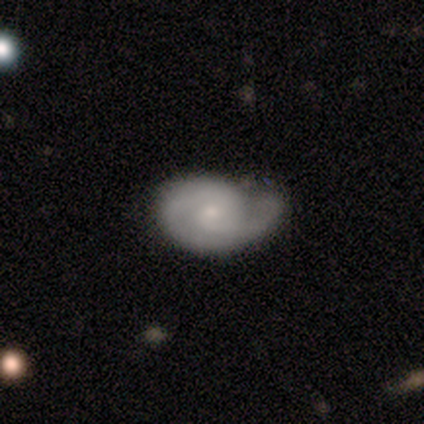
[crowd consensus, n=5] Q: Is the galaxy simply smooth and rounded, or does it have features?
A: featured or disk — 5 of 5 (100%).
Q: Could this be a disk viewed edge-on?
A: no — 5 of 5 (100%).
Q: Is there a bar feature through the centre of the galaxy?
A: no — 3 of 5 (60%).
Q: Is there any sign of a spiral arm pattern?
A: yes — 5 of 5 (100%).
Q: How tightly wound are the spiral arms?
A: tight — 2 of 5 (40%, tied with medium).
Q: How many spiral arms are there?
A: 2 — 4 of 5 (80%).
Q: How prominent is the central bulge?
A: small — 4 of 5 (80%).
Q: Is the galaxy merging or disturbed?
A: minor disturbance — 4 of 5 (80%).